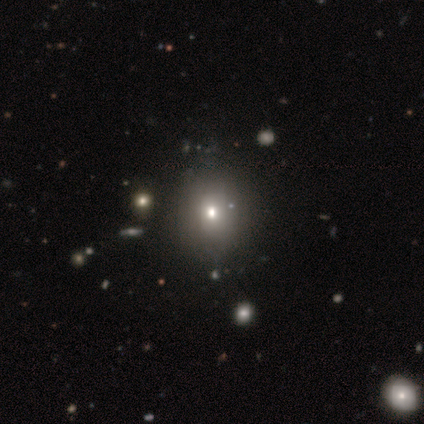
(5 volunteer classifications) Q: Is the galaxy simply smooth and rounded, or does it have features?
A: smooth — 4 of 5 (80%).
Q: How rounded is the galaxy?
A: round — 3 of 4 (75%).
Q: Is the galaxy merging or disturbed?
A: none — 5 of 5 (100%).